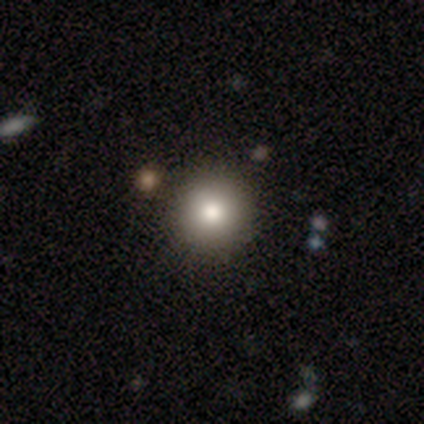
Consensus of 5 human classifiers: A smooth galaxy with no disk features (80%) that is round (100%). Merging: none (100%).